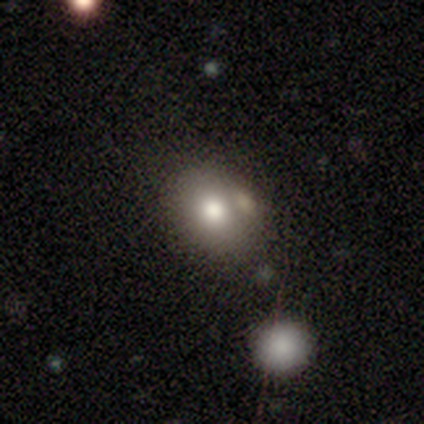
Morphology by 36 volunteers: Smooth or featured: smooth — 61% (featured or disk — 25%)
How rounded: in between — 73% (round — 27%)
Merging: none — 65% (merger — 19%)